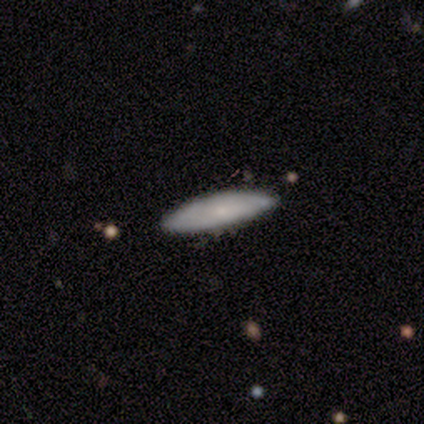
Smooth or featured? smooth (80%)
How rounded? cigar-shaped (100%)
Merging? none (80%)